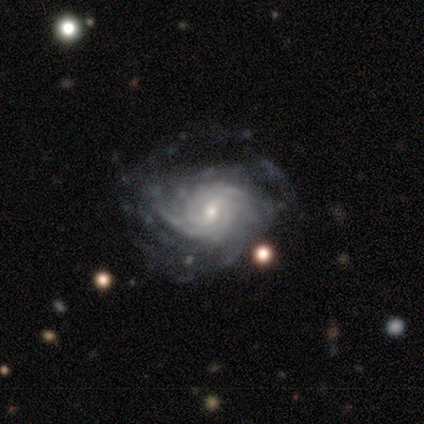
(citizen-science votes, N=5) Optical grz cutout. It shows a featured or disk galaxy (80%) with no bar (75%), tight (100%) spiral arms (100%) and a small central bulge (75%). Merging: none (60%).